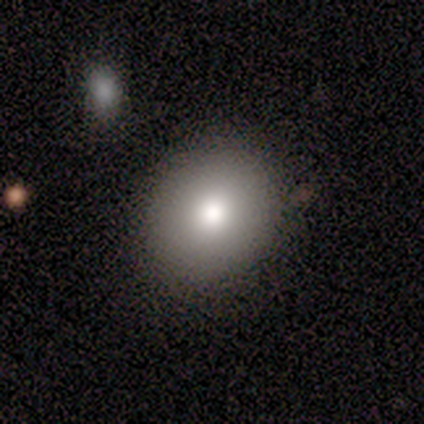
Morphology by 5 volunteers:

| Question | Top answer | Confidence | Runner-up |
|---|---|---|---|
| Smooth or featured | smooth | 80% | featured or disk (20%) |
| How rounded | round | 50% | tied: in between (50%) |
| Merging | none | 80% | minor disturbance (20%) |